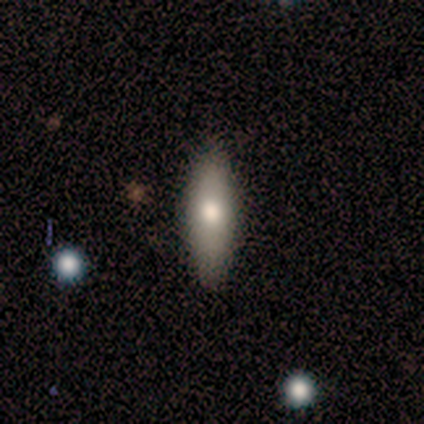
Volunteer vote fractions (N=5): This is likely a smooth galaxy (60%). How rounded: likely cigar-shaped (67%). Merging: clearly none (80%).